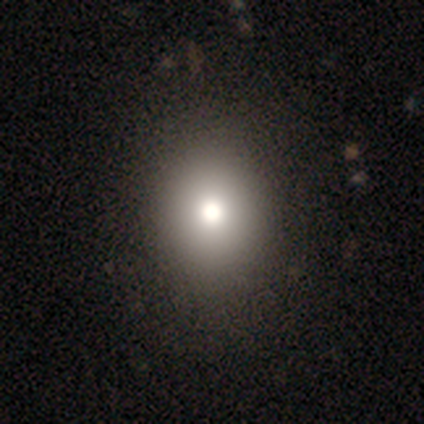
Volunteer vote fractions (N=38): smooth-or-featured: smooth: 79% | featured or disk: 13% | star or artifact: 8%
  how-rounded: round: 80% | in between: 20% | cigar-shaped: 0%
  merging: none: 63% | minor disturbance: 6% | major disturbance: 0% | merger: 0%